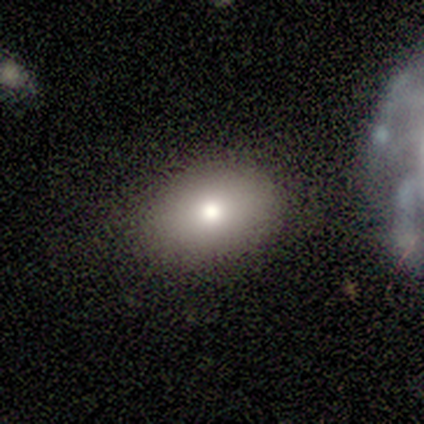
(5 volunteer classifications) A smooth galaxy with no disk features (100%) that is round (60%). Merging: none (100%).